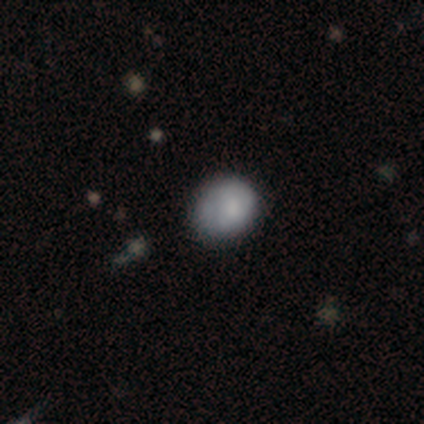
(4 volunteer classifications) Smooth or featured: smooth — 100%
How rounded: round — 75% (in between — 25%)
Merging: none — 75% (minor disturbance — 25%)